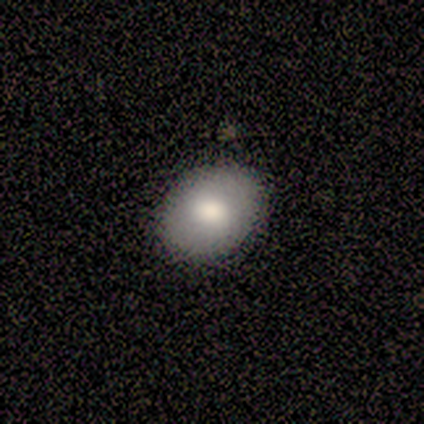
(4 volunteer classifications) Overall: smooth (75%). How rounded: in between (67%; round 33%). Merging: none (100%).